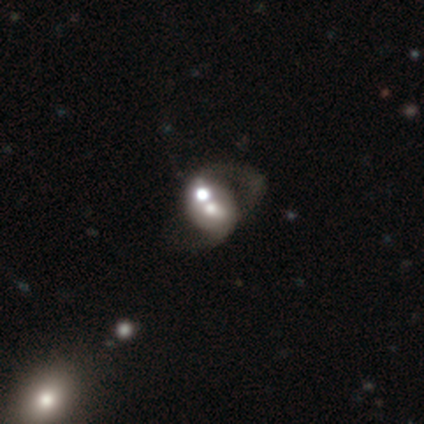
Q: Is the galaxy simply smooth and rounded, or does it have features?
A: smooth — 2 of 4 (50%, tied with featured or disk).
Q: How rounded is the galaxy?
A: in between — 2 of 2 (100%).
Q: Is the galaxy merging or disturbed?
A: major disturbance — 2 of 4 (50%, tied with merger).